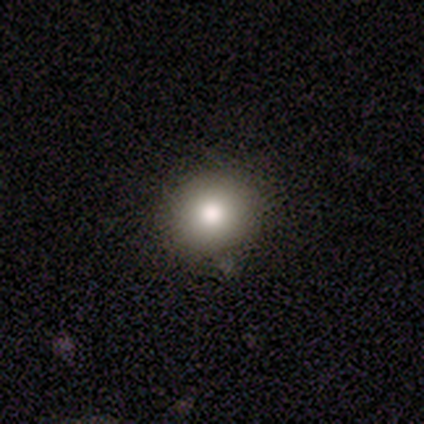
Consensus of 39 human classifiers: Volunteers were most divided on "how rounded": round: 78%, in between: 22%, cigar-shaped: 0%. More confident: merging — none (89%); smooth or featured — smooth (82%).